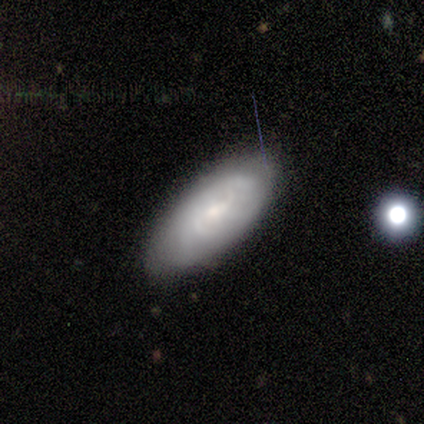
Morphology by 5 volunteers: featured or disk 60%, smooth 40%, star or artifact 0%. Down the decision tree: edge-on disk — no (100%); bar — no (67%); spiral arms — yes (67%); spiral arm count — 2 (50%, tied with can't tell); spiral winding — tight (50%, tied with loose); bulge size — small (100%); merging — none (60%).